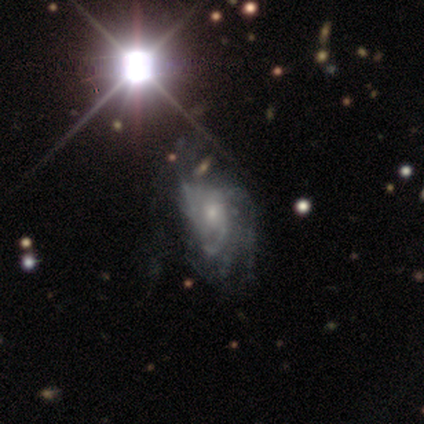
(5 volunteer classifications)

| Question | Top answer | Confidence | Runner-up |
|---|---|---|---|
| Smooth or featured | featured or disk | 80% | star or artifact (20%) |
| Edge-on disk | no | 100% | — |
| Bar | no | 75% | weak (25%) |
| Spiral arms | yes | 100% | — |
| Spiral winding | tight | 50% | medium (25%) |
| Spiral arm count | can't tell | 75% | 3 (25%) |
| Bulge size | small | 75% | moderate (25%) |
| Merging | major disturbance | 75% | minor disturbance (25%) |